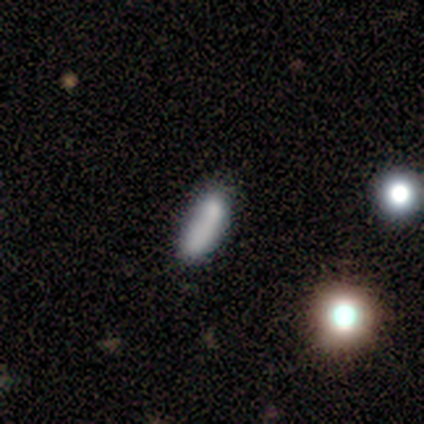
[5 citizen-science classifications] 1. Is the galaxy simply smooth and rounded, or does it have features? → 60% star or artifact, 40% smooth, 0% featured or disk.